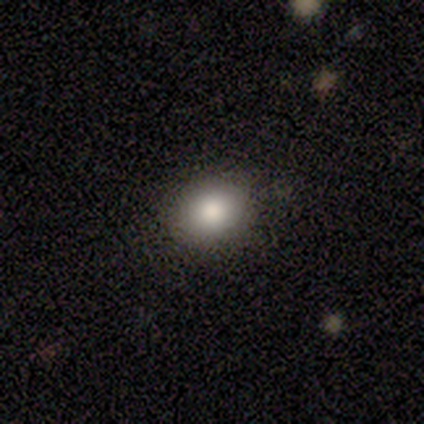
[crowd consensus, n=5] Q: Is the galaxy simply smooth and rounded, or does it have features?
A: smooth — 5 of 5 (100%).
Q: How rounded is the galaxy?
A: round — 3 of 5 (60%).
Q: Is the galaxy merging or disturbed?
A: none — 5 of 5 (100%).